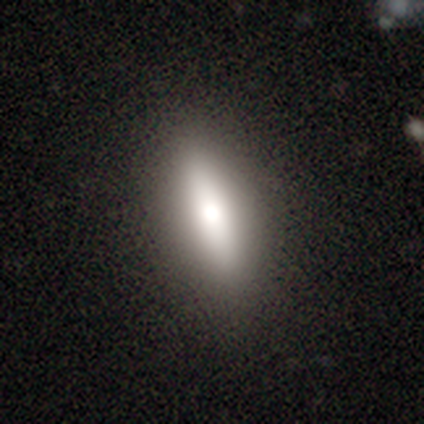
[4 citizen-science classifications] Overall: smooth (75%). How rounded: cigar-shaped (100%). Merging: none (100%).